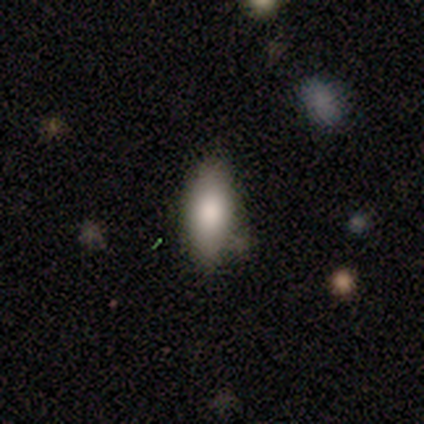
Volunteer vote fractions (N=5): smooth-or-featured: smooth: 80% | star or artifact: 20% | featured or disk: 0%
  how-rounded: in between: 75% | cigar-shaped: 25% | round: 0%
  merging: none: 50% (tied) | minor disturbance: 50% (tied) | major disturbance: 0% | merger: 0%